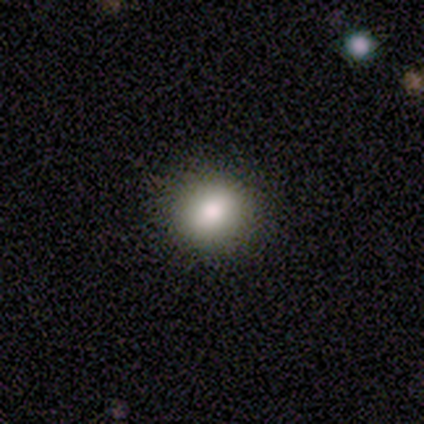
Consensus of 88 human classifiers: This appears to be a smooth galaxy with no disk features (88%) that is round (78%). Merging: none (92%).